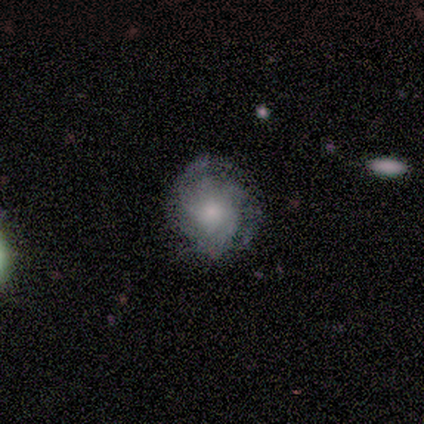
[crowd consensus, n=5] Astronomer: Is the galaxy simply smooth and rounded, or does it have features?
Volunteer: featured or disk — 60% (runner-up: smooth, 40%).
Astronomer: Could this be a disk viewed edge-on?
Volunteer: no — 100%.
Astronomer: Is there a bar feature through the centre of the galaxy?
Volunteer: no — 67%.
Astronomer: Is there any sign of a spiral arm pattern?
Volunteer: yes — 100%.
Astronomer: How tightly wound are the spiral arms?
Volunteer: tight — 67%.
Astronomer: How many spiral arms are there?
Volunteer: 2 — 33%, tied with 3 and can't tell at 33%.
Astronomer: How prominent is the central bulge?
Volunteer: small — 67%.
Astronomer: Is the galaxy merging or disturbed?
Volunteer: none — 80%.